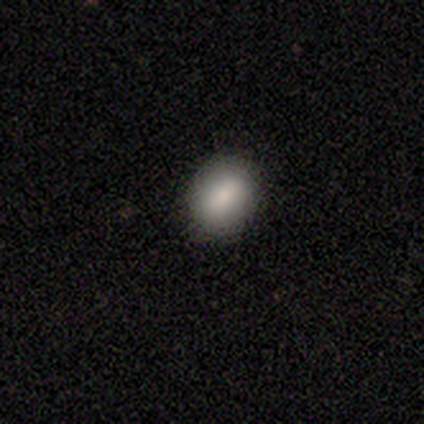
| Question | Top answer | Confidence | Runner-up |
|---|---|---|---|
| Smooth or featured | smooth | 80% | star or artifact (20%) |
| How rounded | round | 50% | tied: in between (50%) |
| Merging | none | 100% | — |